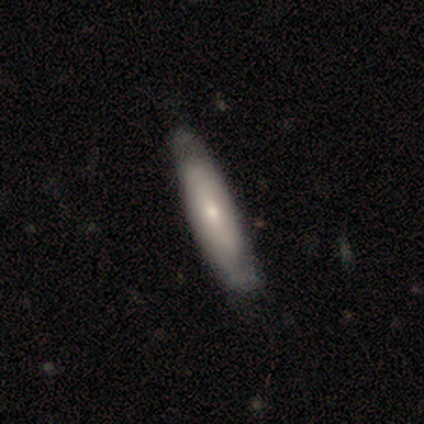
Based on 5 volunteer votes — Smooth or featured? smooth (60%)
How rounded? cigar-shaped (67%)
Merging? none (80%)